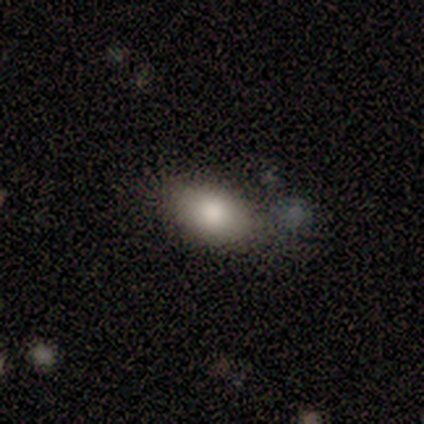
Smooth or featured?
  - smooth: 100% *
  - featured or disk: 0%
  - star or artifact: 0%
How rounded?
  - in between: 100% *
  - round: 0%
  - cigar-shaped: 0%
Merging?
  - none: 75% *
  - minor disturbance: 25%
  - major disturbance: 0%
  - merger: 0%